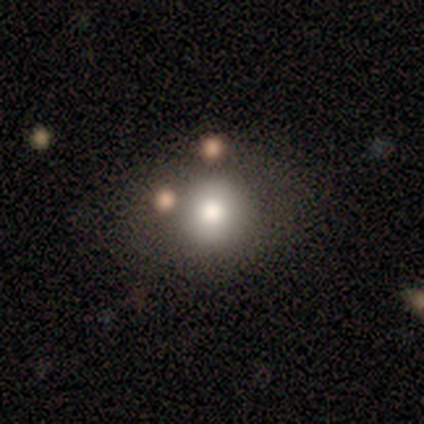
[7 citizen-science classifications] Smooth or featured? smooth (100%)
How rounded? round (86%)
Merging? none (57%)